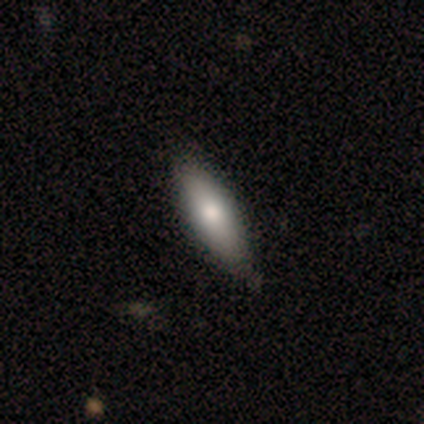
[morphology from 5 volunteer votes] Smooth or featured?
  - smooth: 80% *
  - featured or disk: 20%
  - star or artifact: 0%
How rounded?
  - in between: 75% *
  - cigar-shaped: 25%
  - round: 0%
Merging?
  - none: 80% *
  - minor disturbance: 20%
  - major disturbance: 0%
  - merger: 0%